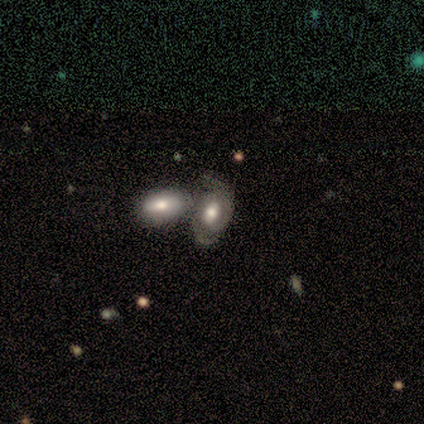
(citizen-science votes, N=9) Smooth or featured?
  - featured or disk: 67% *
  - smooth: 22%
  - star or artifact: 11%
Edge-on disk?
  - no: 100% *
  - yes: 0%
Bar?
  - weak: 50% * (tied)
  - no: 50% * (tied)
  - strong: 0%
Spiral arms?
  - yes: 100% *
  - no: 0%
Spiral winding?
  - medium: 67% *
  - tight: 33%
  - loose: 0%
Spiral arm count?
  - 2: 67% *
  - 1: 17%
  - 3: 17%
  - 4: 0%
  - more than 4: 0%
  - can't tell: 0%
Bulge size?
  - large: 33% * (tied)
  - moderate: 33% * (tied)
  - small: 33% * (tied)
  - dominant: 0%
  - none: 0%
Merging?
  - merger: 38% *
  - none: 25%
  - major disturbance: 25%
  - minor disturbance: 12%